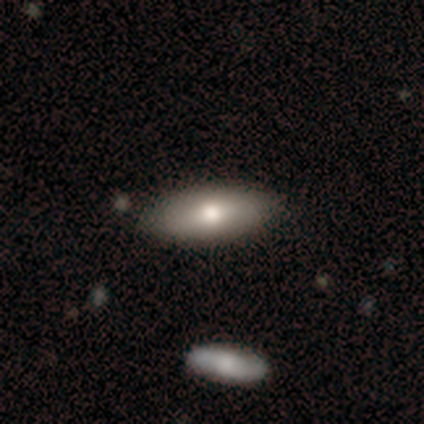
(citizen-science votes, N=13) This is likely a smooth galaxy (62%). How rounded: likely in between (75%). Merging: clearly none (82%).